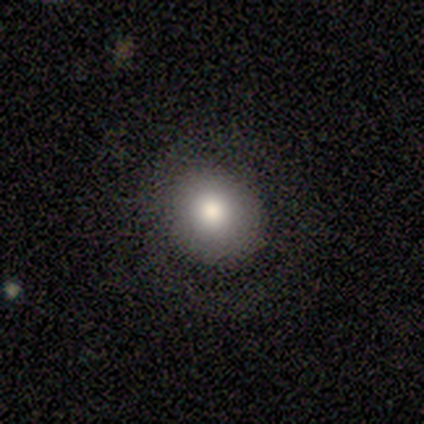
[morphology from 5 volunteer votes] Overall: smooth (60%; featured or disk 20%). How rounded: round (100%). Merging: none (75%).